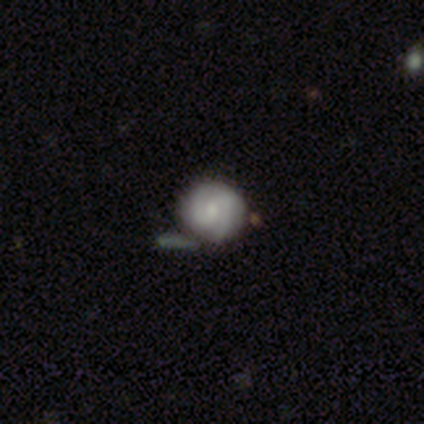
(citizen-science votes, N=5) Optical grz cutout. It shows a featured or disk galaxy (60%) with no bar (100%), 2 (100%) tight (67%) spiral arms (100%) and a small central bulge (67%). Merging: none (80%).